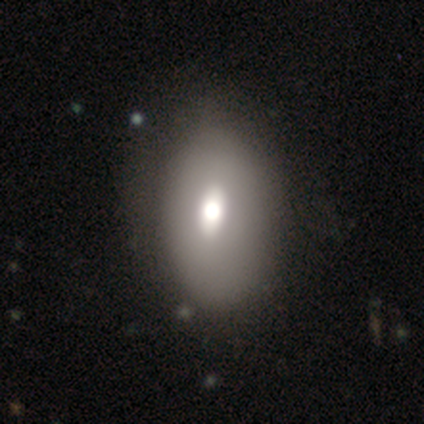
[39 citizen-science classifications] Morphology: type=smooth (64%); roundness=in between (84%); merging=none (61%).